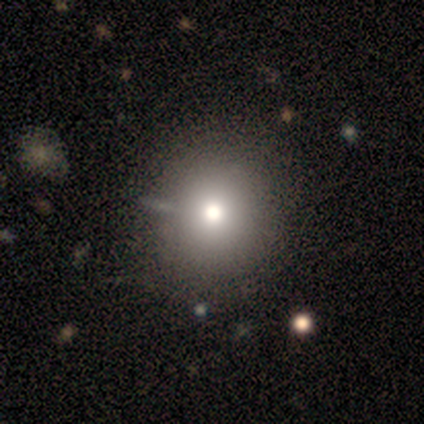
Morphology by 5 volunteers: type=smooth (60%); roundness=round (100%); merging=none (100%).